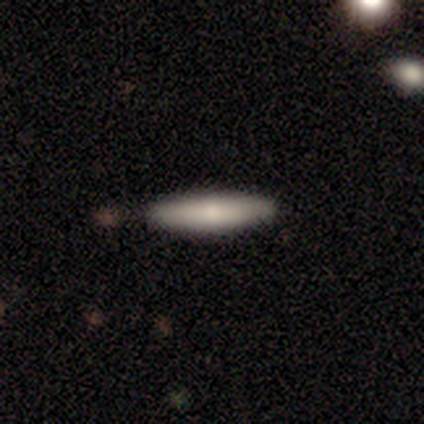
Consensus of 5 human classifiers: smooth_or_featured: smooth (p=0.60) [alt: featured or disk p=0.40]
how_rounded: cigar-shaped (p=1.00)
merging: none (p=1.00)